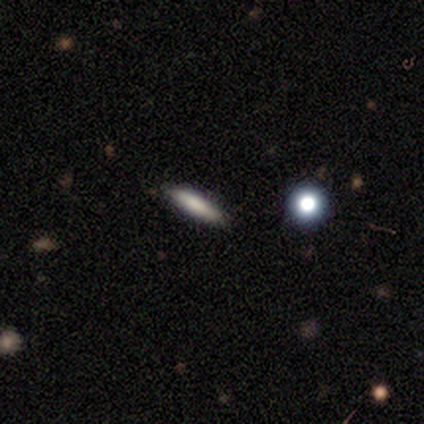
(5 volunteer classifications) smooth-or-featured: smooth: 80% | star or artifact: 20% | featured or disk: 0%
  how-rounded: cigar-shaped: 75% | in between: 25% | round: 0%
  merging: none: 100% | minor disturbance: 0% | major disturbance: 0% | merger: 0%